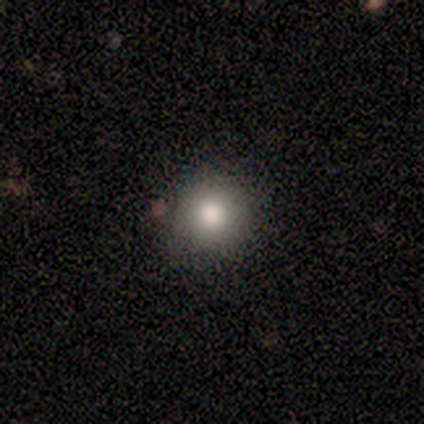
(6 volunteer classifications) Morphology: type=smooth (100%); roundness=round (100%); merging=none (100%).